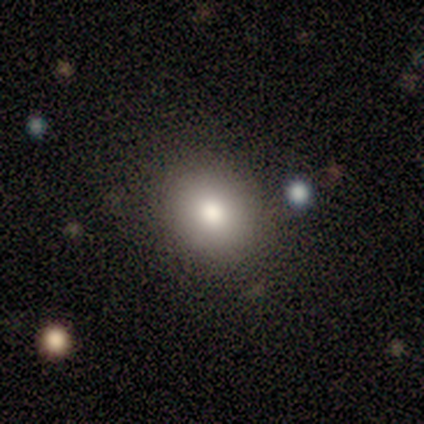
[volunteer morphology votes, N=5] smooth 100%, featured or disk 0%, star or artifact 0%. Down the decision tree: how rounded — round (80%); merging — none (100%).